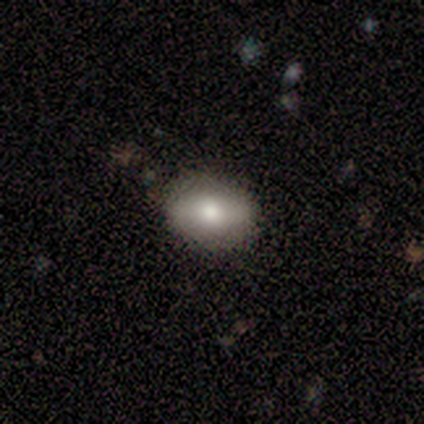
Smooth or featured: smooth — 100%
How rounded: in between — 100%
Merging: none — 75% (minor disturbance — 25%)